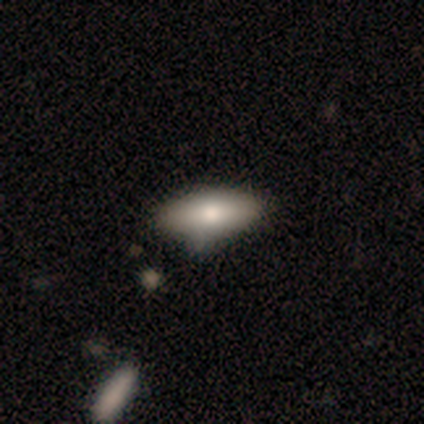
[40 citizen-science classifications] Smooth or featured?
  - smooth: 80% *
  - featured or disk: 18%
  - star or artifact: 2%
How rounded?
  - in between: 91% *
  - cigar-shaped: 9%
  - round: 0%
Merging?
  - none: 49% *
  - minor disturbance: 15%
  - merger: 5%
  - major disturbance: 0%